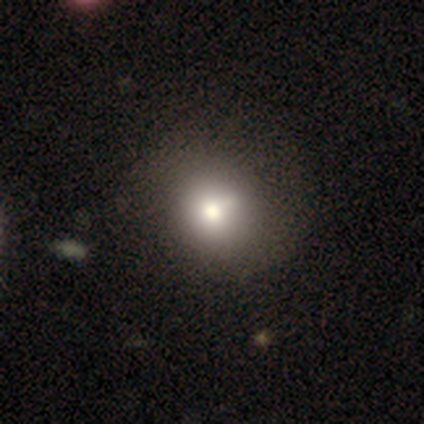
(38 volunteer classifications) Q: Smooth or featured?
A: smooth (66%); runner-up: featured or disk (24%)
Q: How rounded?
A: round (72%); runner-up: in between (24%)
Q: Merging?
A: none (38%); runner-up: minor disturbance (21%)